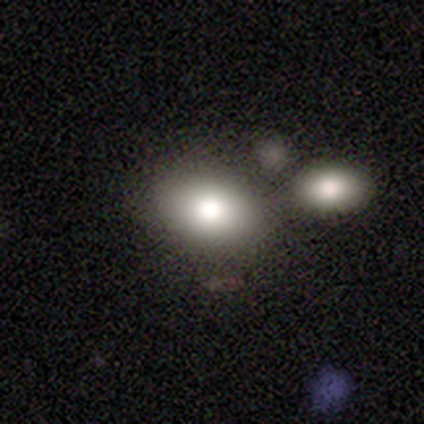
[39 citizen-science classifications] Smooth or featured?
  - smooth: 77% *
  - featured or disk: 13%
  - star or artifact: 10%
How rounded?
  - in between: 67% *
  - round: 30%
  - cigar-shaped: 3%
Merging?
  - none: 60% *
  - merger: 34%
  - minor disturbance: 3%
  - major disturbance: 3%